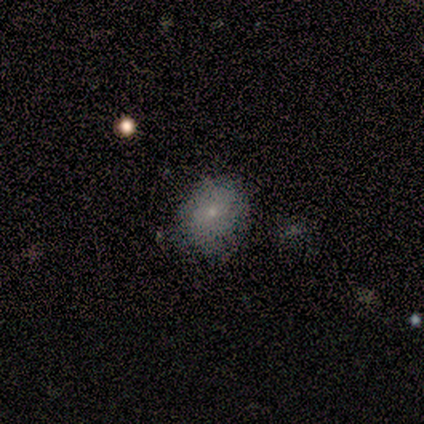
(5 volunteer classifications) Volunteers were most divided on "merging": none: 60%, minor disturbance: 40%, major disturbance: 0%, merger: 0%. More confident: smooth or featured — smooth (80%); how rounded — in between (75%).